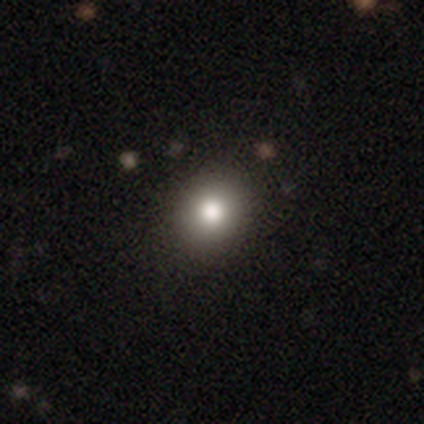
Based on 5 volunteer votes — Overall: smooth (80%). How rounded: round (75%). Merging: none (80%).